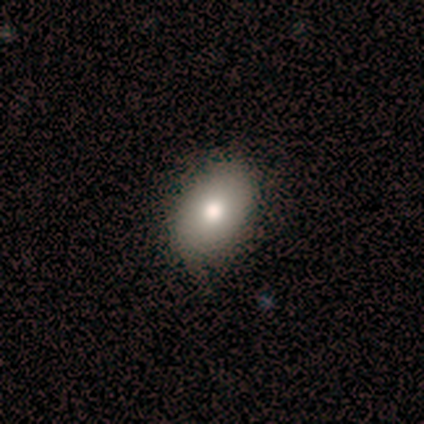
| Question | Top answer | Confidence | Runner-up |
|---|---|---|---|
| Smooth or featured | smooth | 100% | — |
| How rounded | in between | 80% | round (20%) |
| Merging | none | 80% | minor disturbance (20%) |